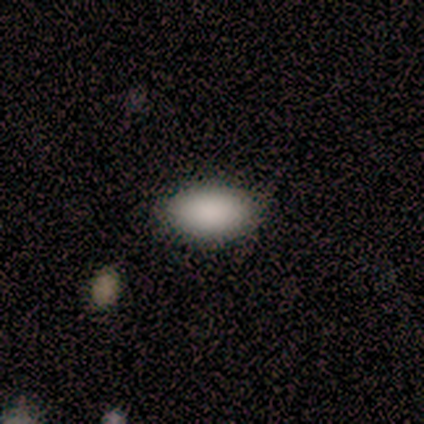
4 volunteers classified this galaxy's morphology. This is likely a smooth galaxy (75%). How rounded: clearly in between (100%). Merging: clearly none (100%).